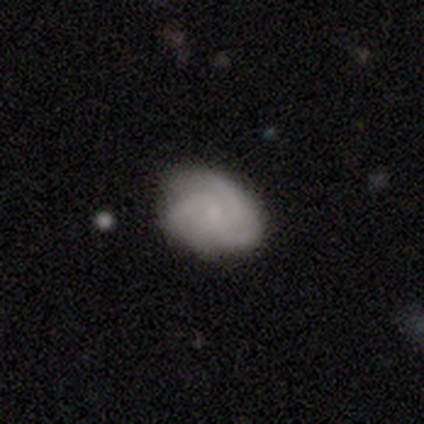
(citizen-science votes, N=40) A featured or disk galaxy (65%) with no bar (88%), 3 (81%) tight (58%) spiral arms (100%) and a small central bulge (42%). Merging: none (68%).